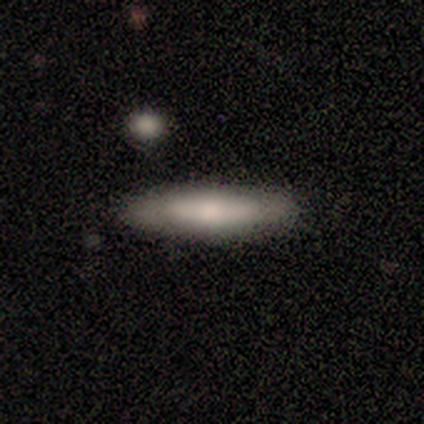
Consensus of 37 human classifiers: This appears to be a smooth galaxy with no disk features (49%) that is cigar-shaped (83%). Merging: none (86%).